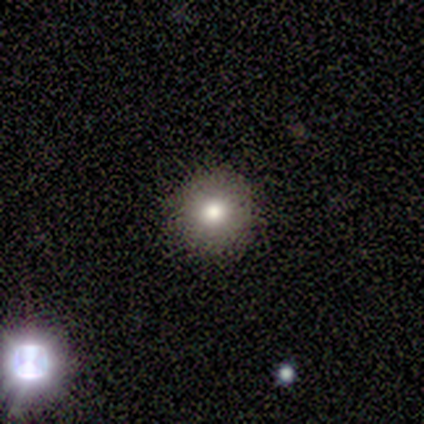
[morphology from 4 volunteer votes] smooth_or_featured: smooth (p=0.75) [alt: featured or disk p=0.25]
how_rounded: round (p=1.00)
merging: none (p=1.00)